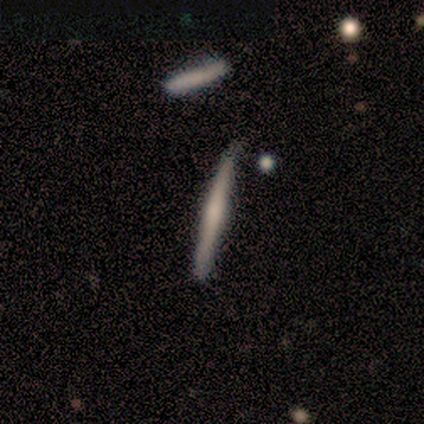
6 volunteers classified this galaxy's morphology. Overall: featured or disk (67%; smooth 33%). Edge-on disk: yes (100%). Edge-on bulge: boxy (50%; none 25%). Merging: none (83%).